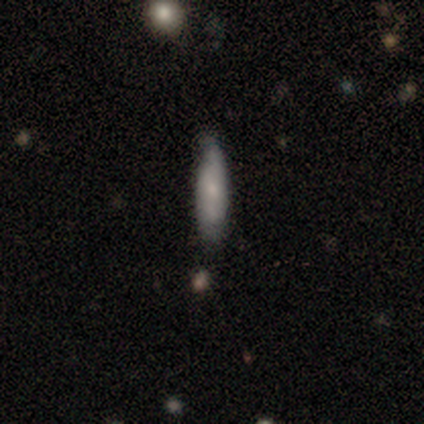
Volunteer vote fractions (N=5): Overall: smooth (80%). How rounded: cigar-shaped (75%). Merging: none (80%).